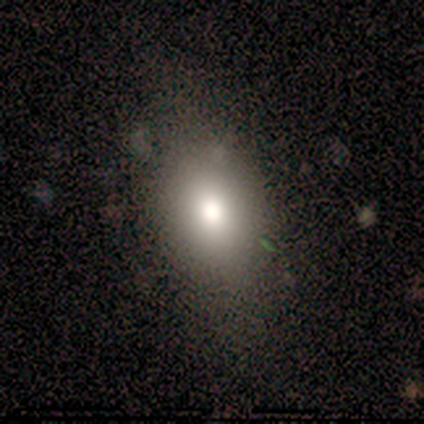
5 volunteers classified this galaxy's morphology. Overall: smooth (80%). How rounded: in between (75%). Merging: none (100%).